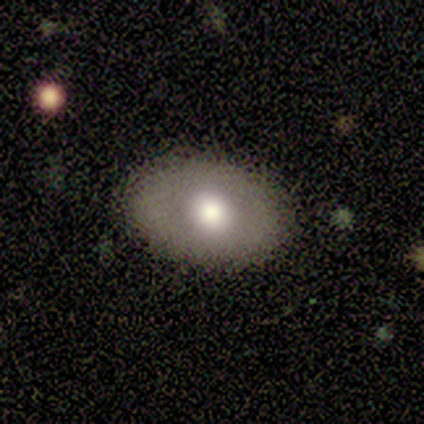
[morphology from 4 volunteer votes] Smooth or featured: smooth — 50% (tied with featured or disk — 50%)
How rounded: round — 100%
Merging: none — 100%